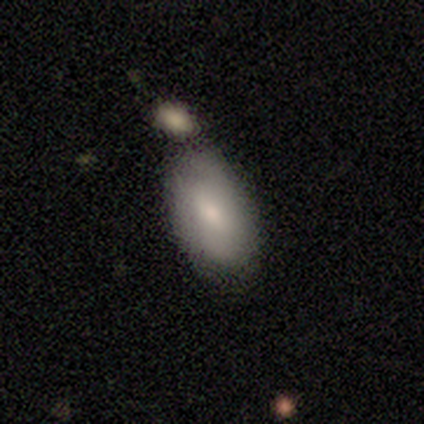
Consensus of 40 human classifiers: smooth-or-featured: smooth: 92% | featured or disk: 8% | star or artifact: 0%
  how-rounded: in between: 95% | round: 3% | cigar-shaped: 3%
  merging: none: 52% | merger: 25% | minor disturbance: 20% | major disturbance: 2%